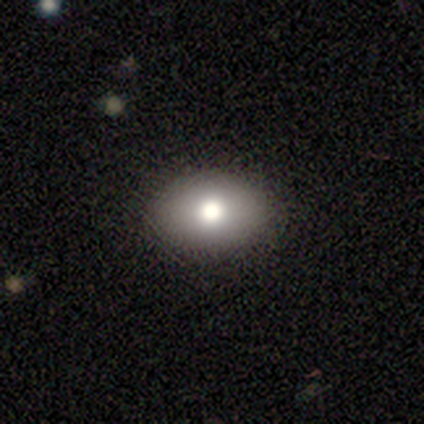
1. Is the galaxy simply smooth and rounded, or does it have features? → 80% smooth, 20% featured or disk, 0% star or artifact.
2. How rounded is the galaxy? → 100% in between, 0% round, 0% cigar-shaped.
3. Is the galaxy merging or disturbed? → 80% none, 20% major disturbance, 0% minor disturbance, 0% merger.